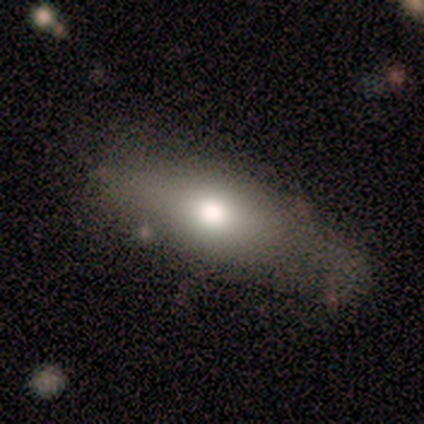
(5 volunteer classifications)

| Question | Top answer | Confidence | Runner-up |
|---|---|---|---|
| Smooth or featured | featured or disk | 60% | smooth (40%) |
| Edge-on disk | yes | 100% | — |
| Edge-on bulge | rounded | 100% | — |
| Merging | none | 40% | tied: minor disturbance (40%) |